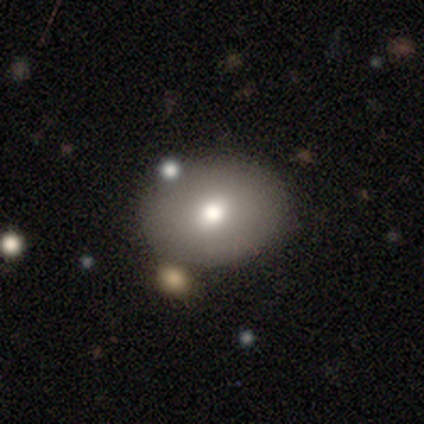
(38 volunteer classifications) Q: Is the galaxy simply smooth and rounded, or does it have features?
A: smooth — 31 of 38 (82%).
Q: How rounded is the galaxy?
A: in between — 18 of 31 (58%).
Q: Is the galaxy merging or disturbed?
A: none — 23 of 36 (64%).